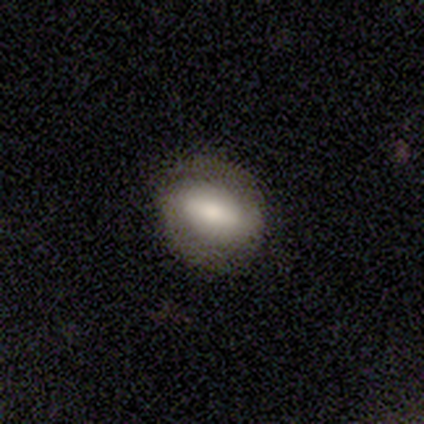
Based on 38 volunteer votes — Volunteers were most divided on "bulge size": large: 41%, small: 27%, moderate: 23%, dominant: 5%, none: 5%. More confident: edge-on disk — no (92%); spiral arm count — 2 (89%); spiral arms — yes (86%); smooth or featured — featured or disk (63%); bar — strong (59%); spiral winding — medium (58%); merging — none (53%).